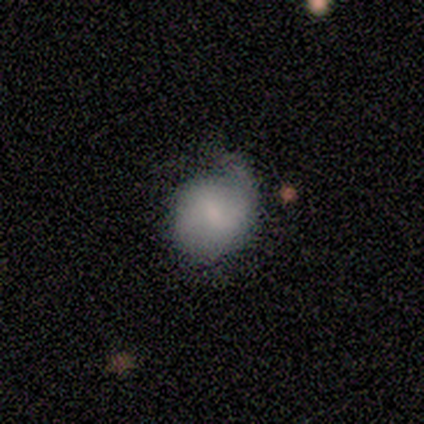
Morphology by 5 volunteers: Smooth or featured?
  - smooth: 60% *
  - featured or disk: 40%
  - star or artifact: 0%
How rounded?
  - round: 67% *
  - in between: 33%
  - cigar-shaped: 0%
Merging?
  - none: 60% *
  - minor disturbance: 20%
  - major disturbance: 20%
  - merger: 0%